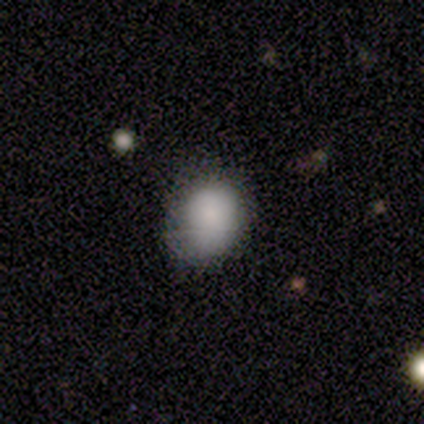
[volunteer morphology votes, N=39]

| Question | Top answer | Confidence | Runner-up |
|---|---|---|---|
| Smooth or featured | smooth | 82% | star or artifact (15%) |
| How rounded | round | 53% | in between (41%) |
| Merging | none | 67% | minor disturbance (27%) |